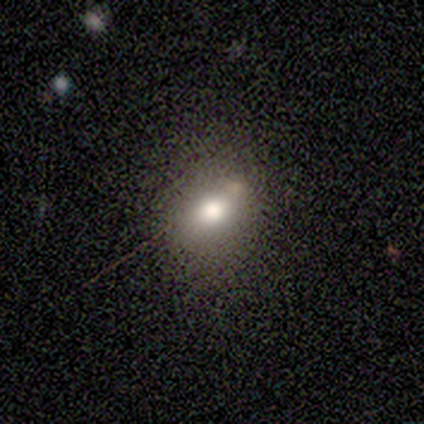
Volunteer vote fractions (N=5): This appears to be a smooth galaxy with no disk features (80%) that is round (50%, tied with in between). Merging: none (80%).